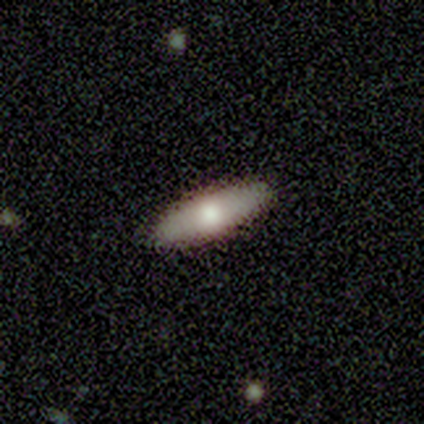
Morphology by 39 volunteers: This is possibly a smooth galaxy (51%). How rounded: clearly cigar-shaped (90%). Merging: clearly none (97%).